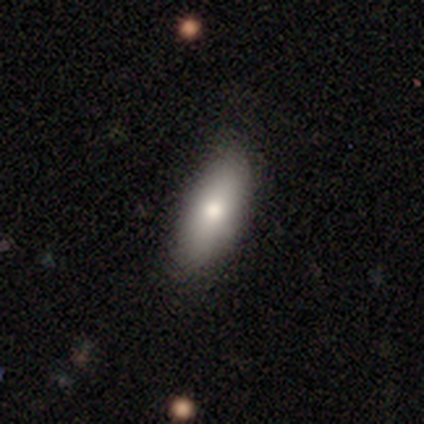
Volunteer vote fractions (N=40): A smooth galaxy with no disk features (75%) that is in between round and cigar-shaped (87%). Merging: none (81%).